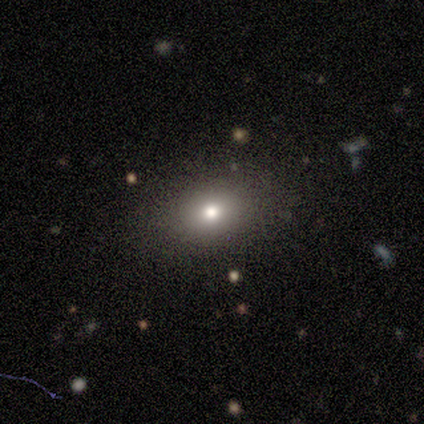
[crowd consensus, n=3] Volunteers were most divided on "smooth or featured" (3-way tie): smooth: 33%, featured or disk: 33%, star or artifact: 33%. More confident: how rounded — in between (100%); merging — none (100%).